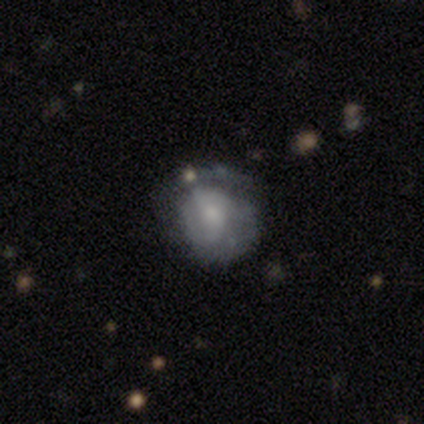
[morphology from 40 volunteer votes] Smooth or featured? smooth (45%, tied with featured or disk)
How rounded? in between (56%)
Merging? none (47%)